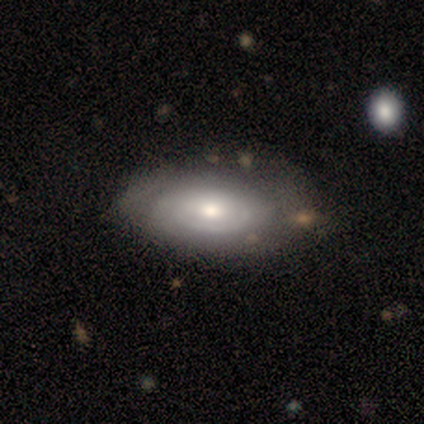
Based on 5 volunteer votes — Volunteers were most divided on "bulge size" (2-way tie): moderate: 50%, small: 50%, dominant: 0%, large: 0%, none: 0%. More confident: edge-on disk — no (100%); bar — no (100%); spiral arms — no (100%); smooth or featured — featured or disk (80%); merging — none (75%).